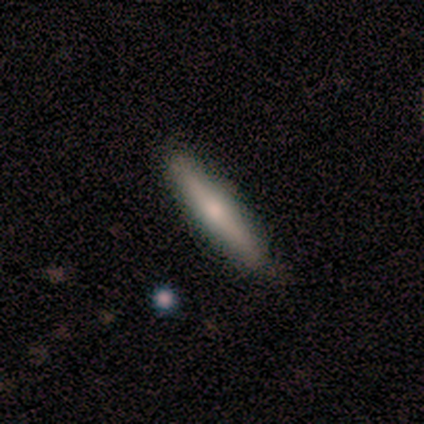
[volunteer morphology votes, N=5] Smooth or featured? smooth (60%)
How rounded? cigar-shaped (100%)
Merging? none (80%)